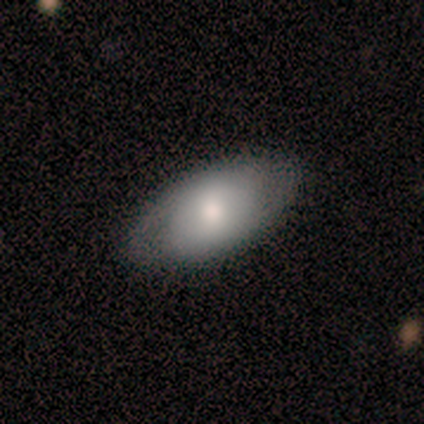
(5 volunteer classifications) A smooth galaxy with no disk features (100%) that is in between round and cigar-shaped (100%).

Vote fractions:
- Smooth or featured? smooth: 100% / featured or disk: 0% / star or artifact: 0%
- How rounded? in between: 100% / round: 0% / cigar-shaped: 0%
- Merging? none: 80% / minor disturbance: 20% / major disturbance: 0% / merger: 0%